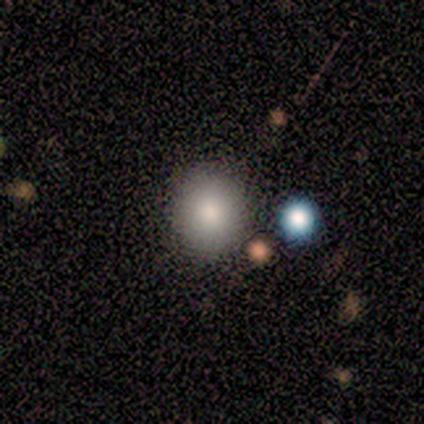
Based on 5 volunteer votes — Smooth or featured: smooth — 60% (star or artifact — 40%)
How rounded: round — 100%
Merging: none — 100%